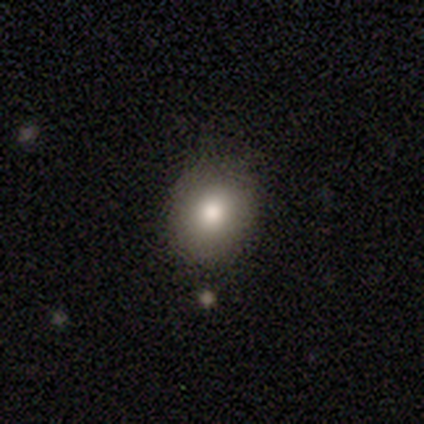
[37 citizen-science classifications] Morphology: type=smooth (86%); roundness=round (62%); merging=none (91%).